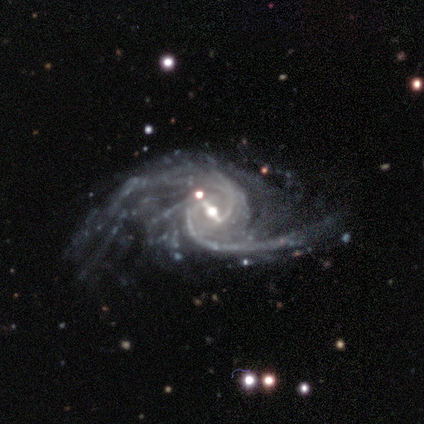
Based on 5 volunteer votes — featured or disk 100%, smooth 0%, star or artifact 0%. Down the decision tree: edge-on disk — no (100%); bar — strong (60%); spiral arms — yes (100%); spiral arm count — 2 (40%); spiral winding — loose (60%); bulge size — small (80%); merging — major disturbance (60%).